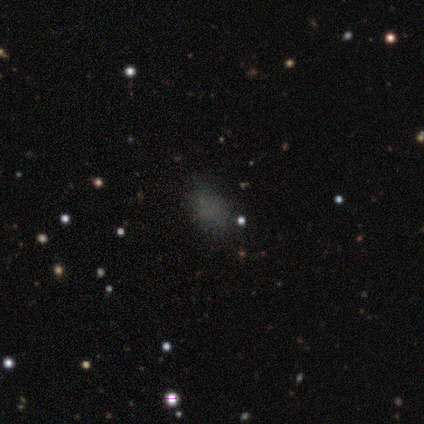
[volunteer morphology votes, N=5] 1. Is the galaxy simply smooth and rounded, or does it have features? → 60% smooth, 40% star or artifact, 0% featured or disk.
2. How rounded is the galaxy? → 100% in between, 0% round, 0% cigar-shaped.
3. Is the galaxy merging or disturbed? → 67% none, 33% merger, 0% minor disturbance, 0% major disturbance.